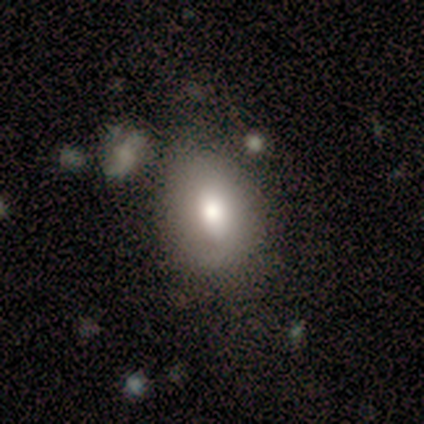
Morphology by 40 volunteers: Smooth or featured?
  - smooth: 72% *
  - featured or disk: 25%
  - star or artifact: 2%
How rounded?
  - in between: 86% *
  - round: 14%
  - cigar-shaped: 0%
Merging?
  - none: 72% *
  - minor disturbance: 23%
  - major disturbance: 3%
  - merger: 3%